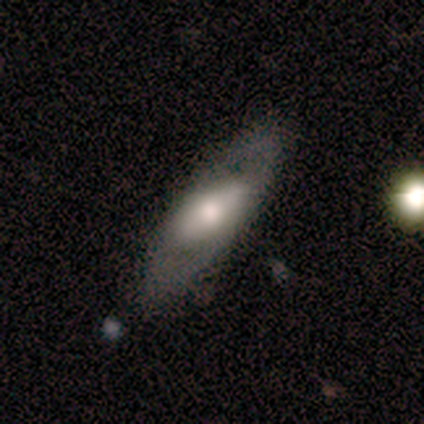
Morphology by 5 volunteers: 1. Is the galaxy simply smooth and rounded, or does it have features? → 60% featured or disk, 40% smooth, 0% star or artifact.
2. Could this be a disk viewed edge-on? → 100% no, 0% yes.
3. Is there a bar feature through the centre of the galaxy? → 33% strong (tied), 33% weak (tied), 33% no (tied).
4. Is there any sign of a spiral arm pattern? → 67% yes, 33% no.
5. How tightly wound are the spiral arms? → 100% loose, 0% tight, 0% medium.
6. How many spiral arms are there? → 100% 2, 0% 1, 0% 3, 0% 4, 0% more than 4, 0% can't tell.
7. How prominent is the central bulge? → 67% moderate, 33% large, 0% dominant, 0% small, 0% none.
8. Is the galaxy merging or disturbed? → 40% none (tied), 40% minor disturbance (tied), 20% merger, 0% major disturbance.